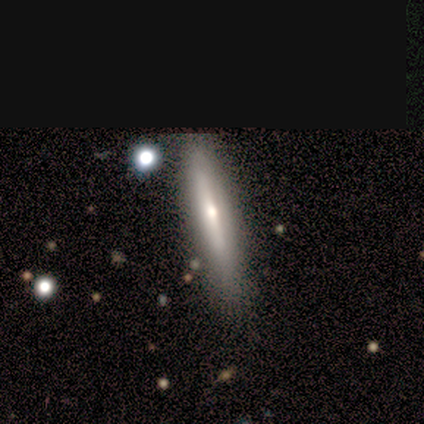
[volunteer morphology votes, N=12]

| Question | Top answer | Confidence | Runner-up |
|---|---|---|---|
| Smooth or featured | smooth | 50% | featured or disk (42%) |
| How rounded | cigar-shaped | 83% | in between (17%) |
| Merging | none | 100% | — |